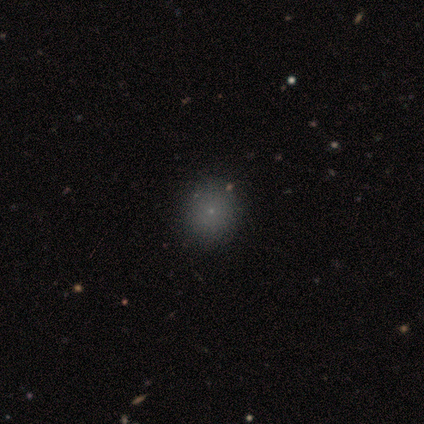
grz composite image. It shows a smooth galaxy with no disk features (40%, tied with star or artifact) that is round (50%, tied with in between). Merging: none (67%).